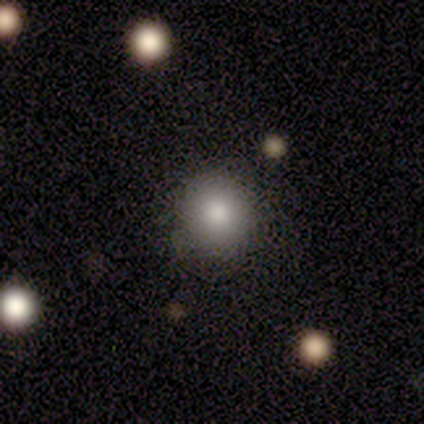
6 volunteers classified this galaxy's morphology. This appears to be a smooth galaxy with no disk features (50%, tied with star or artifact) that is round (100%). Merging: none (67%).